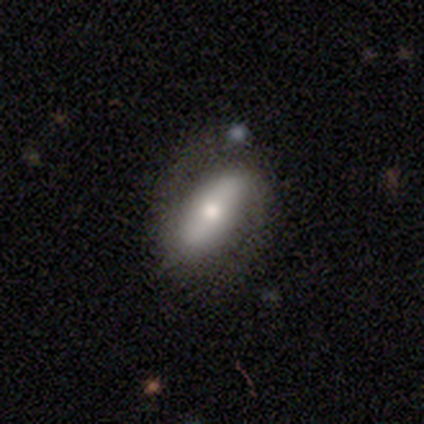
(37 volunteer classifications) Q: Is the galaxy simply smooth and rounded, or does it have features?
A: smooth — 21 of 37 (57%).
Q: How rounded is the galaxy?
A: in between — 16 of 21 (76%).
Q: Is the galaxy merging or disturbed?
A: none — 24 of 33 (73%).